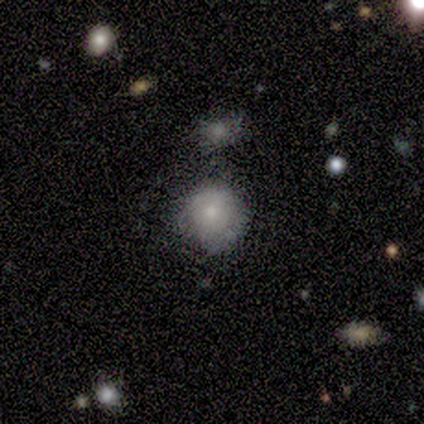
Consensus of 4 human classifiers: Smooth or featured?
  - smooth: 75% *
  - featured or disk: 25%
  - star or artifact: 0%
How rounded?
  - round: 67% *
  - in between: 33%
  - cigar-shaped: 0%
Merging?
  - none: 50% * (tied)
  - major disturbance: 50% * (tied)
  - minor disturbance: 0%
  - merger: 0%